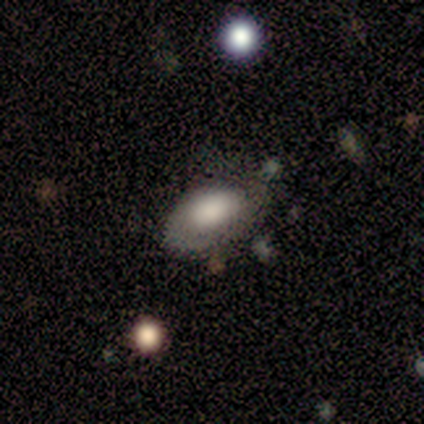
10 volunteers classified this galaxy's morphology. Smooth or featured? featured or disk (60%)
Edge-on disk? no (100%)
Bar? no (83%)
Spiral arms? yes (50%, tied with no)
Spiral winding? medium (67%)
Spiral arm count? 2 (100%)
Bulge size? large (50%)
Merging? none (70%)